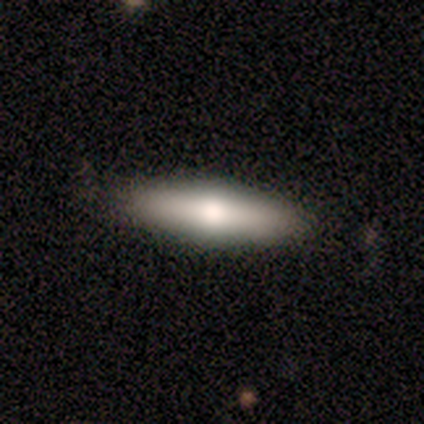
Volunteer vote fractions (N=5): Smooth or featured?
  - featured or disk: 60% *
  - smooth: 40%
  - star or artifact: 0%
Edge-on disk?
  - yes: 100% *
  - no: 0%
Edge-on bulge?
  - rounded: 100% *
  - boxy: 0%
  - none: 0%
Merging?
  - none: 100% *
  - minor disturbance: 0%
  - major disturbance: 0%
  - merger: 0%